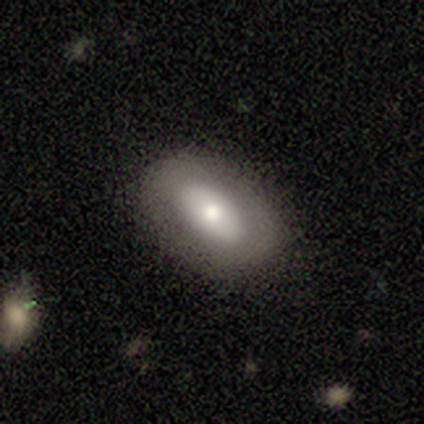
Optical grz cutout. It shows a smooth galaxy with no disk features (67%) that is in between round and cigar-shaped (75%). Merging: none (83%).